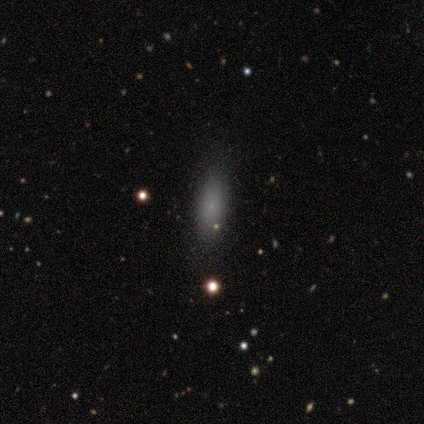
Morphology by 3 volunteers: This appears to be a featured or disk galaxy (67%) with no bar (100%), no spiral arms (100%) and a large central bulge (50%, tied with small). Merging: none (100%).